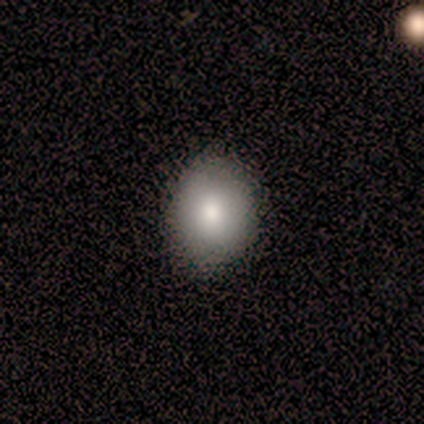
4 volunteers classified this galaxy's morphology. Smooth or featured? smooth (75%)
How rounded? in between (67%)
Merging? none (100%)